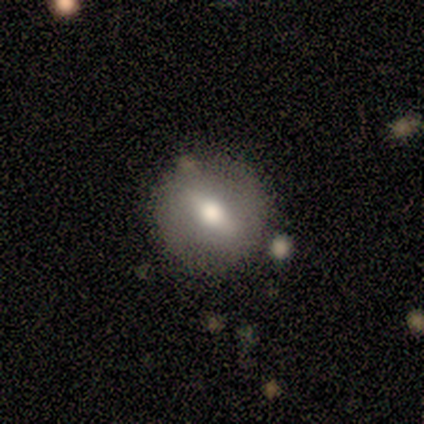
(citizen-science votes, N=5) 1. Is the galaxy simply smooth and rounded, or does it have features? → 60% featured or disk, 40% smooth, 0% star or artifact.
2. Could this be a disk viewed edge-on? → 67% no, 33% yes.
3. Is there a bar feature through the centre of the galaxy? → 100% no, 0% strong, 0% weak.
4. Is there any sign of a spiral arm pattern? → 100% no, 0% yes.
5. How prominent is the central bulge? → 50% moderate (tied), 50% none (tied), 0% dominant, 0% large, 0% small.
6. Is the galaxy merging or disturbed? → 100% none, 0% minor disturbance, 0% major disturbance, 0% merger.